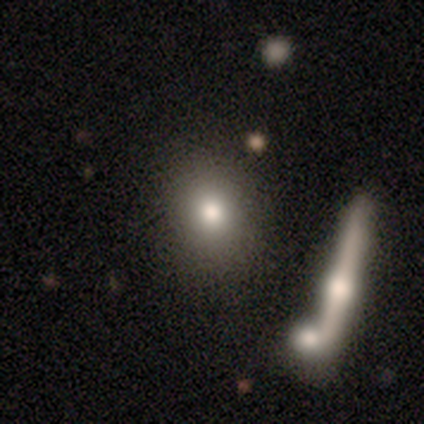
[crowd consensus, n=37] smooth_or_featured: smooth (p=0.65) [alt: star or artifact p=0.19]
how_rounded: round (p=0.58) [alt: in between p=0.42]
merging: none (p=0.83) [alt: minor disturbance p=0.07]